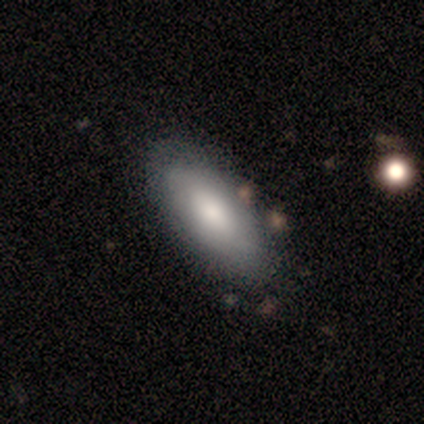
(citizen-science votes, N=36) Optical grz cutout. It shows a smooth galaxy with no disk features (78%) that is in between round and cigar-shaped (89%). Merging: none (88%).